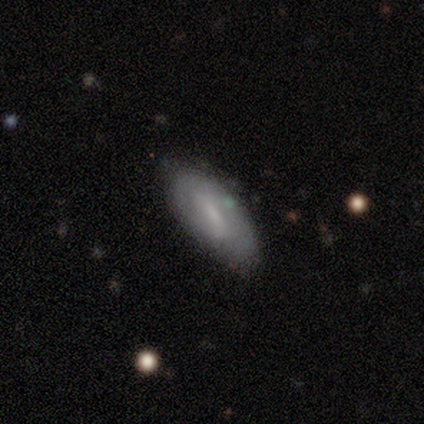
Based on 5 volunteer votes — A featured or disk galaxy (60%) with a strong bar (33%, tied with weak and no), medium (67%) spiral arms (100%) and a moderate central bulge (67%).

Vote fractions:
- Smooth or featured? featured or disk: 60% / smooth: 20% / star or artifact: 20%
- Edge-on disk? no: 100% / yes: 0%
- Bar? strong: 33% (tied) / weak: 33% (tied) / no: 33% (tied)
- Spiral arms? yes: 100% / no: 0%
- Spiral winding? medium: 67% / tight: 33% / loose: 0%
- Spiral arm count? can't tell: 67% / 2: 33% / 1: 0% / 3: 0% / 4: 0% / more than 4: 0%
- Bulge size? moderate: 67% / large: 33% / dominant: 0% / small: 0% / none: 0%
- Merging? none: 75% / minor disturbance: 25% / major disturbance: 0% / merger: 0%